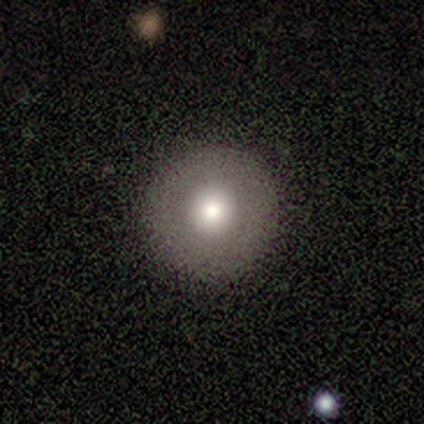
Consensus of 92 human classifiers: Volunteers were most divided on "smooth or featured": smooth: 68%, star or artifact: 18%, featured or disk: 13%. More confident: how rounded — round (100%); merging — none (91%).